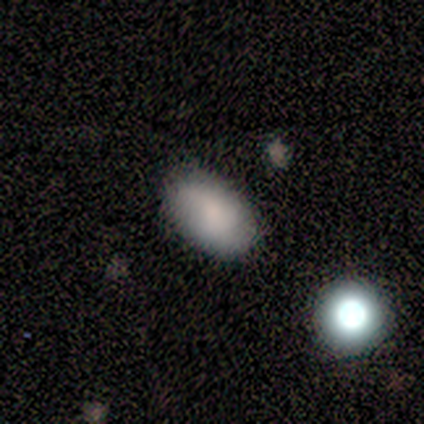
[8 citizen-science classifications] A smooth galaxy with no disk features (75%) that is in between round and cigar-shaped (100%). Merging: none (86%).